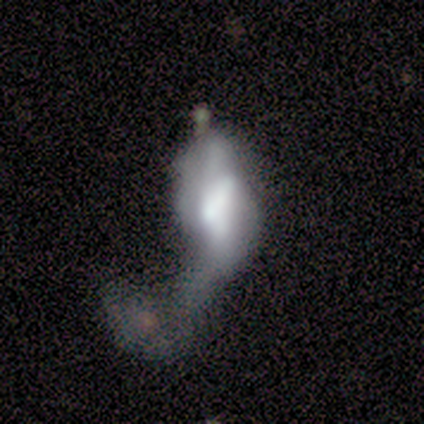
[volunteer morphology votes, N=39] smooth 59%, featured or disk 38%, star or artifact 3%. Down the decision tree: how rounded — in between (83%); merging — merger (55%).